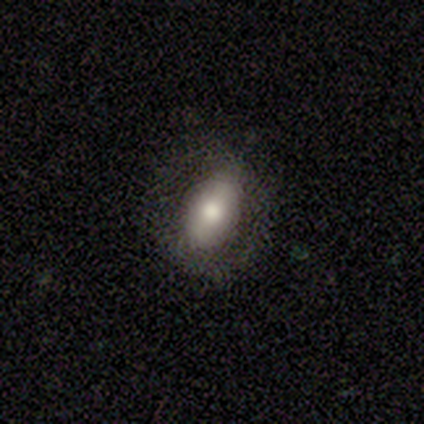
Smooth or featured? 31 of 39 (79%) said smooth. How rounded? 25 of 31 (81%) said in between. Merging? 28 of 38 (74%) said none.